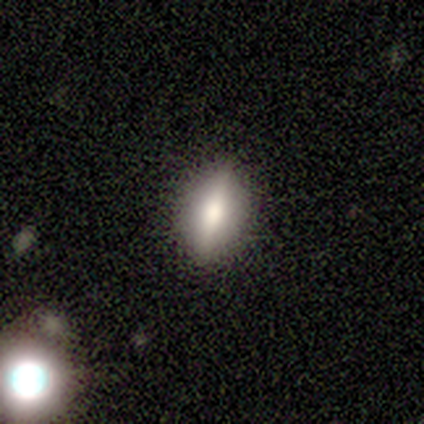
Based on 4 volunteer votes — smooth_or_featured: smooth (p=0.50) [tied with: featured or disk p=0.50]
how_rounded: in between (p=1.00)
merging: none (p=0.75) [alt: minor disturbance p=0.25]